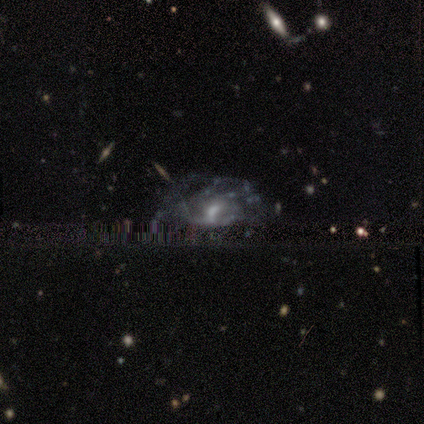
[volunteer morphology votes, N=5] Volunteers were most divided on "smooth or featured": featured or disk: 60%, star or artifact: 40%, smooth: 0%. More confident: edge-on disk — no (100%); spiral arms — no (100%); bulge size — moderate (100%); bar — weak (67%); merging — none (67%).